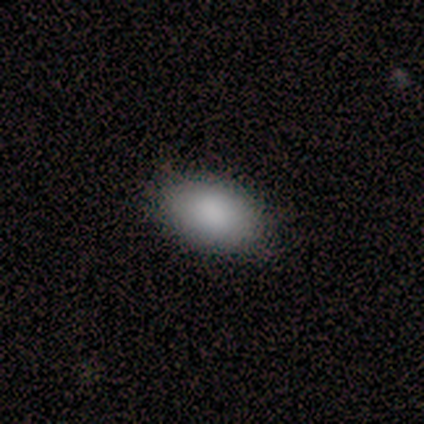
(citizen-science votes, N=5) Smooth or featured?
  - smooth: 100% *
  - featured or disk: 0%
  - star or artifact: 0%
How rounded?
  - in between: 100% *
  - round: 0%
  - cigar-shaped: 0%
Merging?
  - none: 100% *
  - minor disturbance: 0%
  - major disturbance: 0%
  - merger: 0%